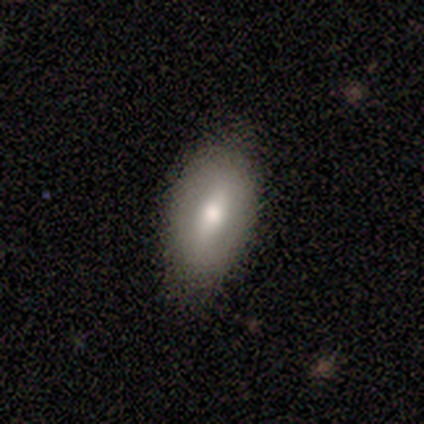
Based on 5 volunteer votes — Smooth or featured?
  - smooth: 60% *
  - featured or disk: 40%
  - star or artifact: 0%
How rounded?
  - in between: 100% *
  - round: 0%
  - cigar-shaped: 0%
Merging?
  - none: 80% *
  - minor disturbance: 20%
  - major disturbance: 0%
  - merger: 0%